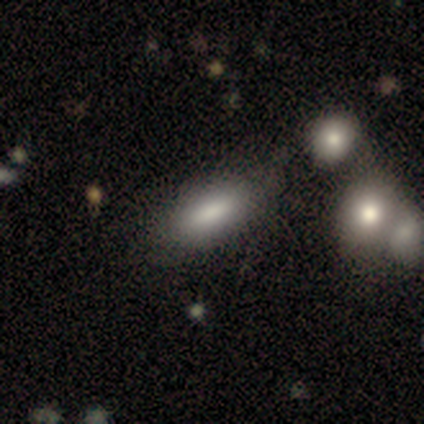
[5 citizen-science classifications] This is likely a smooth galaxy (60%). How rounded: clearly in between (100%). Merging: clearly none (100%).